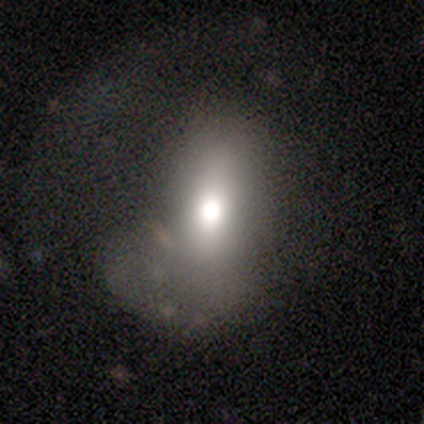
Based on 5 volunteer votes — This is likely a featured or disk galaxy (60%). It is likely viewed edge-on (67%). Edge-on bulge: clearly rounded (100%). Merging: possibly minor disturbance (50%).